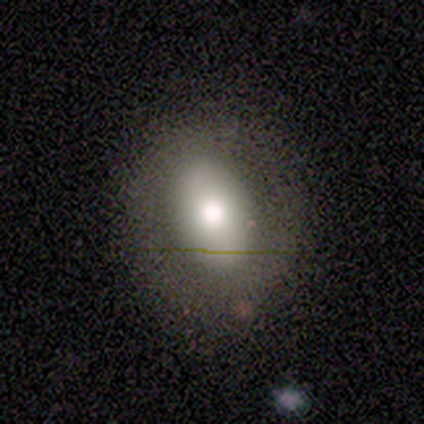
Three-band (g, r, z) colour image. It shows a smooth galaxy with no disk features (50%, tied with featured or disk) that is in between round and cigar-shaped (100%). Merging: minor disturbance (75%).